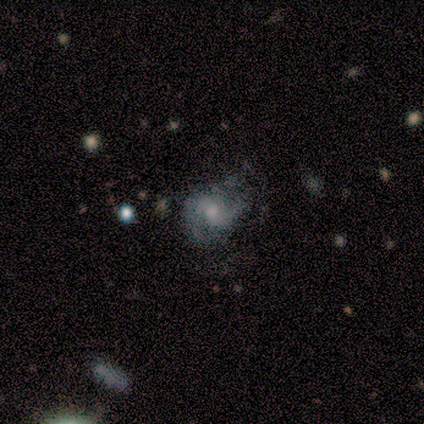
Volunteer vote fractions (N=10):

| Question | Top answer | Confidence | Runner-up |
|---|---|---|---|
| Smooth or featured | featured or disk | 80% | smooth (20%) |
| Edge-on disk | no | 88% | yes (12%) |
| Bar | no | 57% | weak (43%) |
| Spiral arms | yes | 71% | no (29%) |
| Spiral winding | medium | 80% | loose (20%) |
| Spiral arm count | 2 | 80% | 1 (20%) |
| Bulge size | moderate | 43% | tied: small (43%) |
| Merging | none | 60% | major disturbance (30%) |